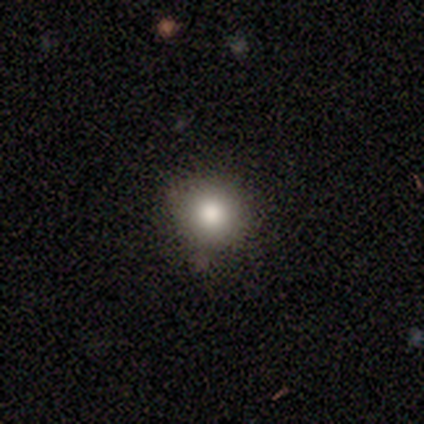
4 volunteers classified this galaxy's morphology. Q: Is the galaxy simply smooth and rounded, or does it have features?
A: smooth — 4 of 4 (100%).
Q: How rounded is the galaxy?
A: round — 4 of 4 (100%).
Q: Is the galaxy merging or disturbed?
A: none — 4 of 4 (100%).